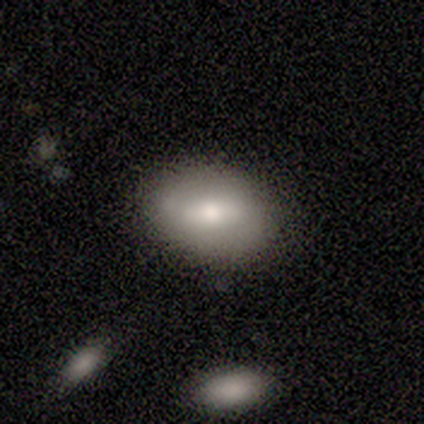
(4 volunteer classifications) This is likely a smooth galaxy (75%). How rounded: clearly in between (100%). Merging: clearly none (100%).